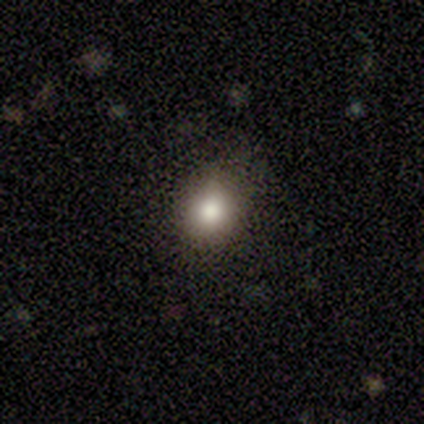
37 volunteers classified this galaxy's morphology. type=smooth (73%); roundness=round (74%); merging=none (84%).